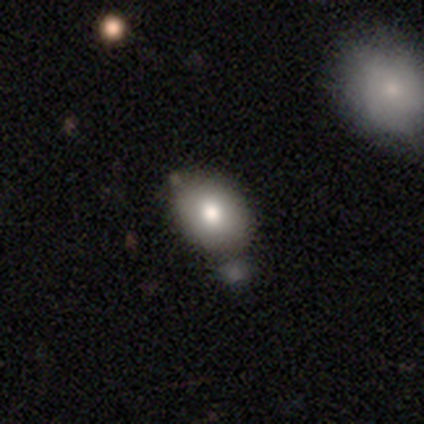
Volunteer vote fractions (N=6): Smooth or featured: smooth — 83% (star or artifact — 17%)
How rounded: in between — 80% (round — 20%)
Merging: none — 100%